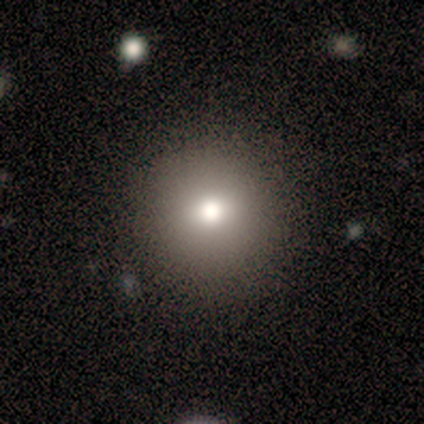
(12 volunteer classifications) Smooth or featured: smooth — 75% (star or artifact — 25%)
How rounded: round — 100%
Merging: none — 89% (minor disturbance — 11%)